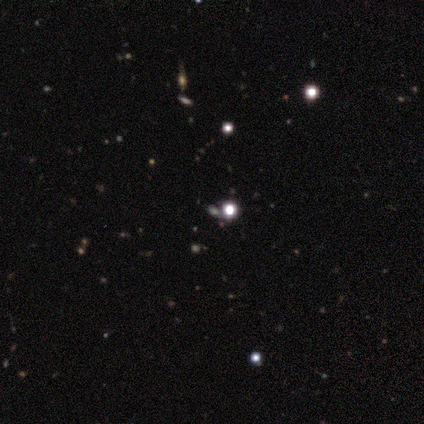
This is likely a star or artifact rather than a galaxy (67%).